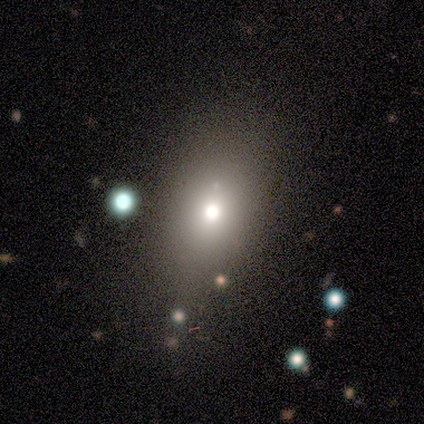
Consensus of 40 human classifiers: This is clearly a smooth galaxy (90%). How rounded: clearly in between (81%). Merging: possibly none (51%).